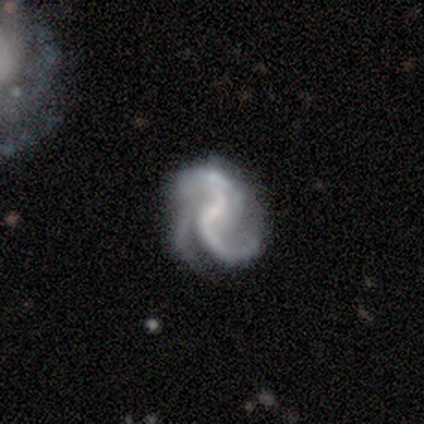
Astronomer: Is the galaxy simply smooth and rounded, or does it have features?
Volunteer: featured or disk — 78%.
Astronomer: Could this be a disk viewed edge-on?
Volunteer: no — 100%.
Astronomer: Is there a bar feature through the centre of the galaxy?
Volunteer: weak — 43%, tied with no at 43%.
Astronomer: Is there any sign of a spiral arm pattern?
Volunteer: yes — 100%.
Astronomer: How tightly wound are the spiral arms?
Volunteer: loose — 43% (runner-up: tight, 29%).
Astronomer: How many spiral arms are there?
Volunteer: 2 — 57%.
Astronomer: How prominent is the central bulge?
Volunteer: small — 57%.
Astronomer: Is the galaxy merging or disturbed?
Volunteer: none — 62%.